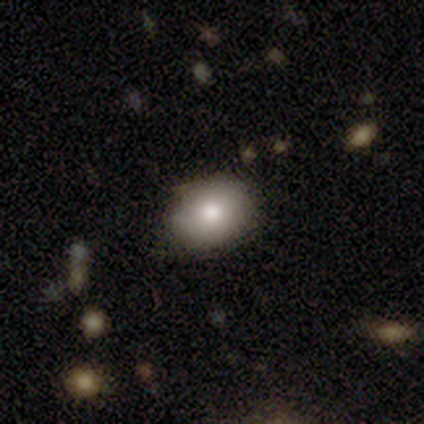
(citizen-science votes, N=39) Smooth or featured? smooth (82%)
How rounded? in between (59%)
Merging? none (91%)